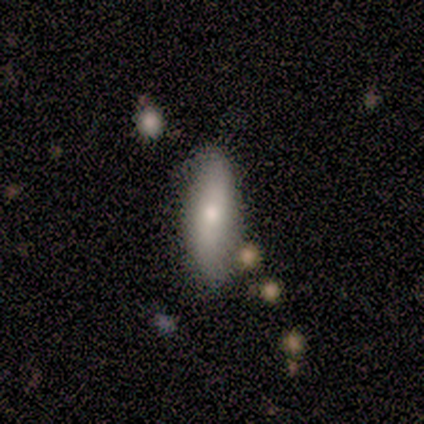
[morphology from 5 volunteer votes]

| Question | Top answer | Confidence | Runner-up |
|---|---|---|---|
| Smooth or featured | smooth | 80% | featured or disk (20%) |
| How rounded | in between | 50% | tied: cigar-shaped (50%) |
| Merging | none | 80% | minor disturbance (20%) |